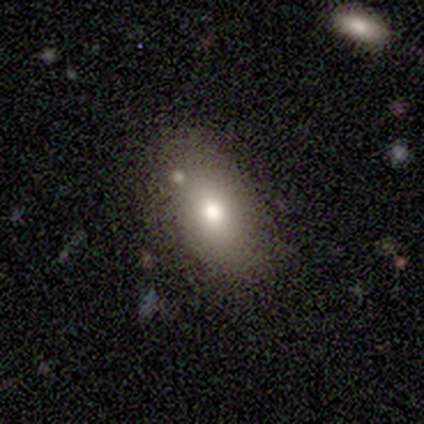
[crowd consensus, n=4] A smooth galaxy with no disk features (75%) that is in between round and cigar-shaped (100%).

Vote fractions:
- Smooth or featured? smooth: 75% / featured or disk: 25% / star or artifact: 0%
- How rounded? in between: 100% / round: 0% / cigar-shaped: 0%
- Merging? merger: 50% / none: 25% / major disturbance: 25% / minor disturbance: 0%